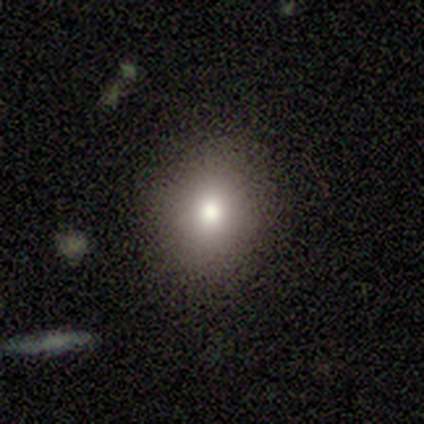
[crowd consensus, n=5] Smooth or featured? 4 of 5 (80%) said smooth. How rounded? 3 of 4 (75%) said round. Merging? 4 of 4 (100%) said none.